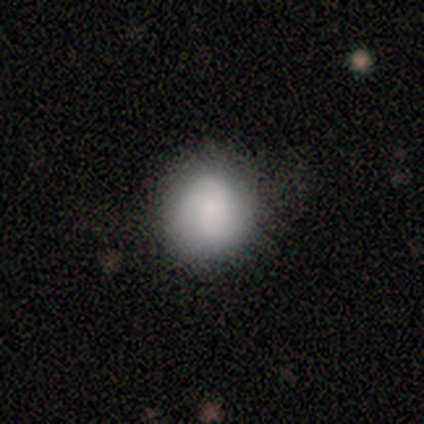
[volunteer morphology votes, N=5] Overall: smooth (60%; featured or disk 40%). How rounded: round (100%). Merging: none (80%).